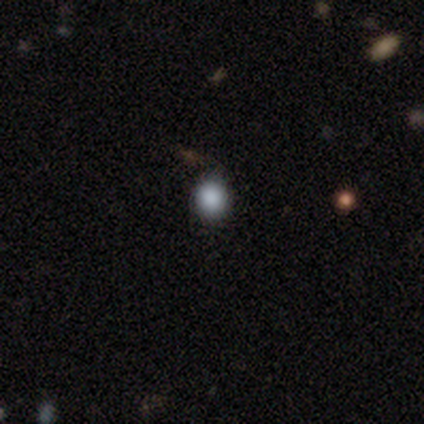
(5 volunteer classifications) A smooth galaxy with no disk features (100%) that is round (100%).

Vote fractions:
- Smooth or featured? smooth: 100% / featured or disk: 0% / star or artifact: 0%
- How rounded? round: 100% / in between: 0% / cigar-shaped: 0%
- Merging? none: 80% / minor disturbance: 20% / major disturbance: 0% / merger: 0%